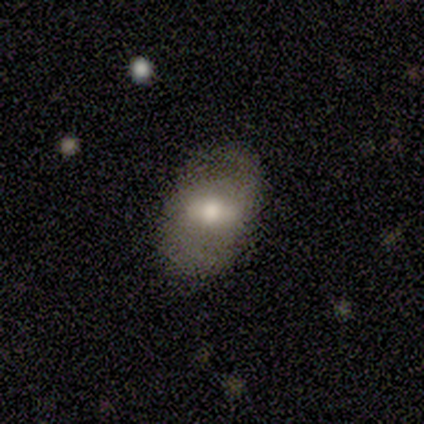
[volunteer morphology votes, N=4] This is possibly a smooth galaxy (50%, tied with featured or disk). How rounded: clearly in between (100%). Merging: likely none (75%).